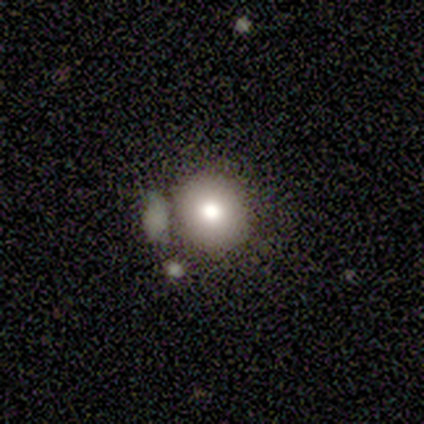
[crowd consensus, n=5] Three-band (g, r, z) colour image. It shows a smooth galaxy with no disk features (80%) that is round (100%). Merging: none (60%).